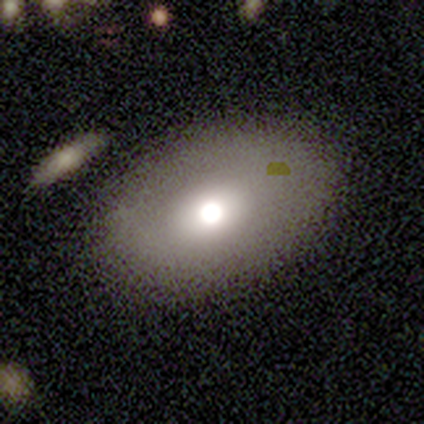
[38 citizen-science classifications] A smooth galaxy with no disk features (63%) that is in between round and cigar-shaped (71%). Merging: none (89%).